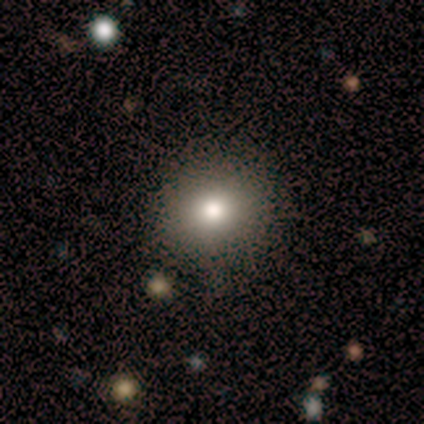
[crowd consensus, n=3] Morphology: type=smooth (67%); roundness=round (100%); merging=none (100%).